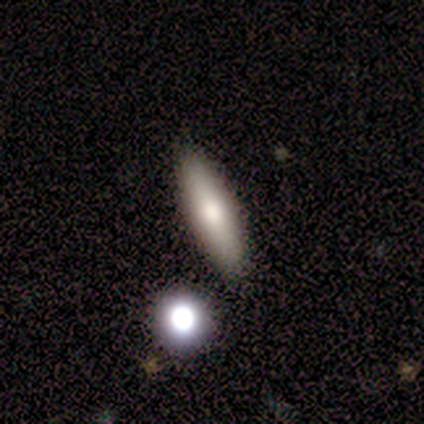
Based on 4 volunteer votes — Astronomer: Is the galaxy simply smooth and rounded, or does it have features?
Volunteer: smooth — 75%.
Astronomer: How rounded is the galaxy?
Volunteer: cigar-shaped — 67%.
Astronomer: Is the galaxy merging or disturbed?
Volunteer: none — 50%.